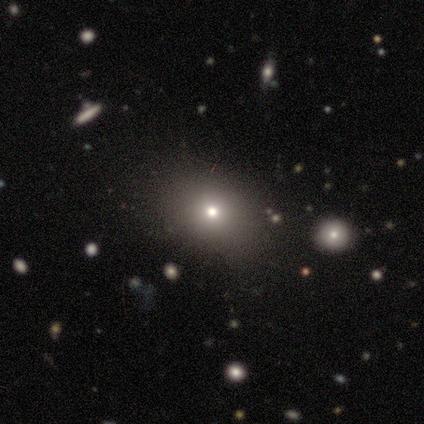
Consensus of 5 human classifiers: A star or artifact, not a galaxy (60%).